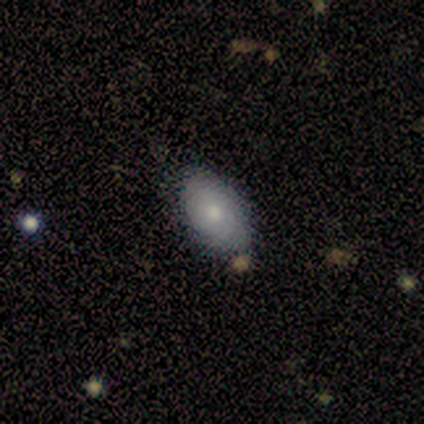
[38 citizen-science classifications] Smooth or featured? 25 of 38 (66%) said smooth. How rounded? 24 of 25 (96%) said in between. Merging? 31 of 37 (84%) said none.